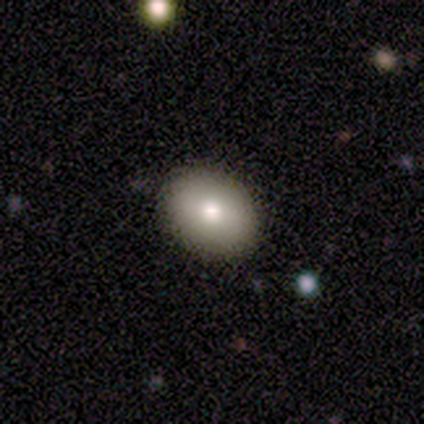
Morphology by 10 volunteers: Smooth or featured?
  - smooth: 70% *
  - featured or disk: 20%
  - star or artifact: 10%
How rounded?
  - in between: 86% *
  - round: 14%
  - cigar-shaped: 0%
Merging?
  - none: 100% *
  - minor disturbance: 0%
  - major disturbance: 0%
  - merger: 0%